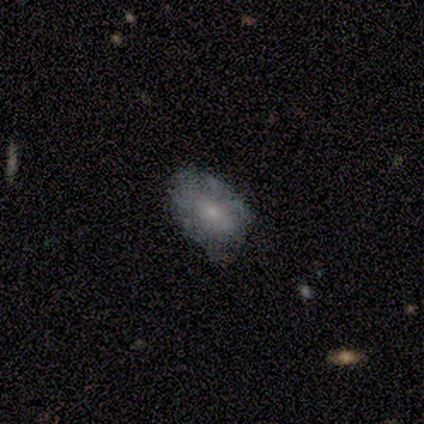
Morphology: type=smooth (80%); roundness=in between (100%); merging=none (80%).